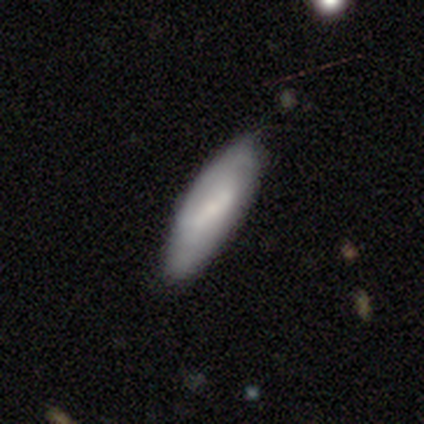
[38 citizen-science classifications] Smooth or featured? smooth (50%)
How rounded? in between (58%)
Merging? none (70%)